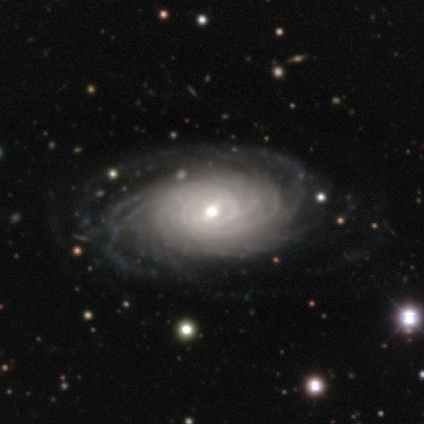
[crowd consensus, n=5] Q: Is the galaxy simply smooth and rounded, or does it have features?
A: featured or disk — 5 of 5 (100%).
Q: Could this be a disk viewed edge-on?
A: no — 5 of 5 (100%).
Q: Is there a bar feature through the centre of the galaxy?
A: weak — 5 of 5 (100%).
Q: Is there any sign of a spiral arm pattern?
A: yes — 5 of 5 (100%).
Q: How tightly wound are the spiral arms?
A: tight — 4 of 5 (80%).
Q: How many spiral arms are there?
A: can't tell — 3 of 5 (60%).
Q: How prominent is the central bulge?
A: moderate — 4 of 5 (80%).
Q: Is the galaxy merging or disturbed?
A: none — 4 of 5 (80%).